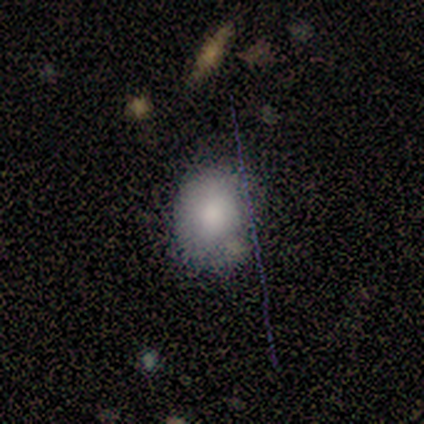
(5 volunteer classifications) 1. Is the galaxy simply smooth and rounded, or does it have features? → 80% smooth, 20% featured or disk, 0% star or artifact.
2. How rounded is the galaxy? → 50% round (tied), 50% in between (tied), 0% cigar-shaped.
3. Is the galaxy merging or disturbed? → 80% none, 20% merger, 0% minor disturbance, 0% major disturbance.